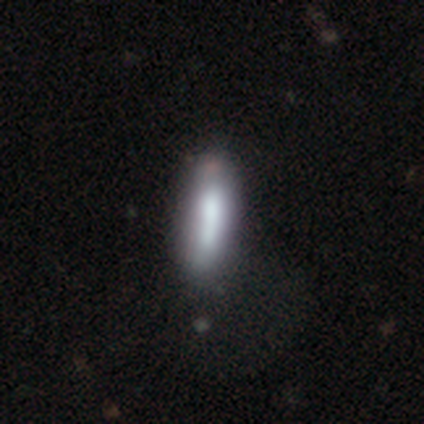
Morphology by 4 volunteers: type=smooth (50%); roundness=cigar-shaped (100%); merging=none (67%).